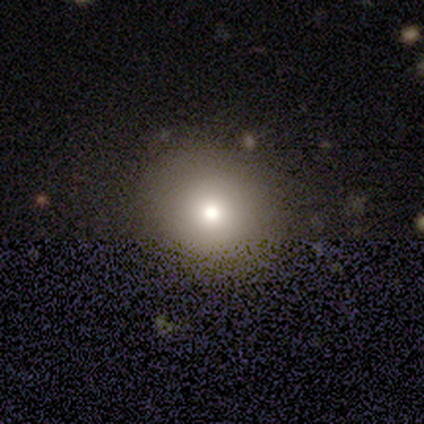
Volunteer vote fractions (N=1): smooth_or_featured: smooth (p=1.00)
how_rounded: round (p=1.00)
merging: none (p=1.00)